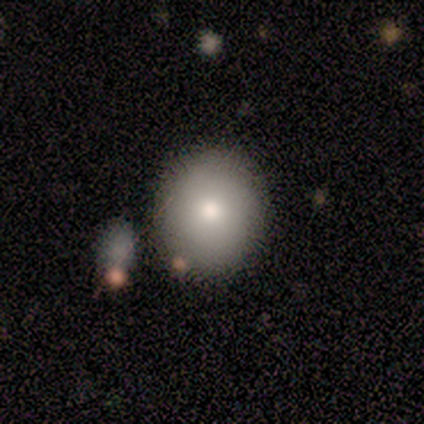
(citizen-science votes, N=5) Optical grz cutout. It shows a smooth galaxy with no disk features (80%) that is round (75%). Merging: none (40%).